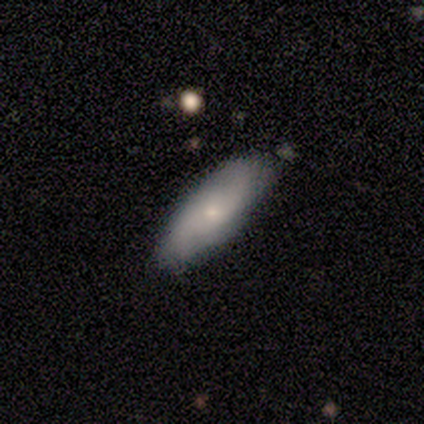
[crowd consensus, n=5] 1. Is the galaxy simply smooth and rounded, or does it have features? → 60% featured or disk, 20% smooth, 20% star or artifact.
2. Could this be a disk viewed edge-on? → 100% no, 0% yes.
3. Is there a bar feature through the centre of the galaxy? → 67% no, 33% strong, 0% weak.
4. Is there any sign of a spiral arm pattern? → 100% yes, 0% no.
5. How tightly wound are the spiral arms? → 67% loose, 33% tight, 0% medium.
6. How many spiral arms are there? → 100% 2, 0% 1, 0% 3, 0% 4, 0% more than 4, 0% can't tell.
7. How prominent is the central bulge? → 67% small, 33% moderate, 0% dominant, 0% large, 0% none.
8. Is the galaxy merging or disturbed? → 75% none, 25% minor disturbance, 0% major disturbance, 0% merger.